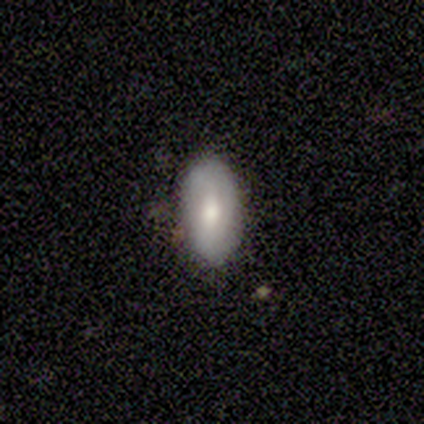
Morphology: type=featured or disk (80%); edge-on=no (75%); bar=strong (33%, tied with weak and no); spiral arms=yes (67%); winding=medium (100%); arm count=2 (50%, tied with can't tell); bulge=small (67%); merging=none (100%).